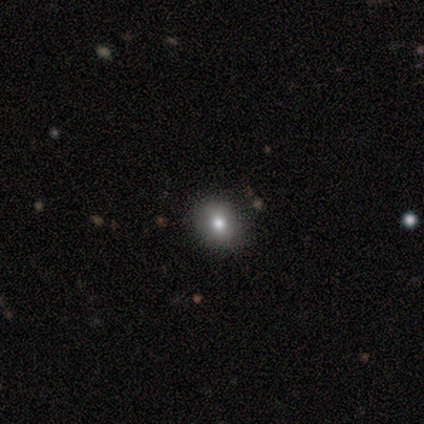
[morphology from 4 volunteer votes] smooth 100%, featured or disk 0%, star or artifact 0%. Down the decision tree: how rounded — round (50%, tied with in between); merging — none (100%).